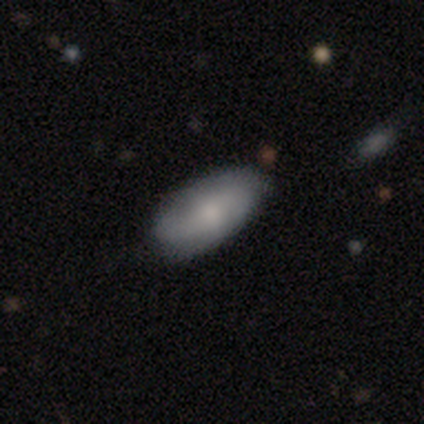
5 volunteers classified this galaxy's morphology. smooth-or-featured: smooth: 80% | star or artifact: 20% | featured or disk: 0%
  how-rounded: in between: 75% | cigar-shaped: 25% | round: 0%
  merging: none: 50% (tied) | minor disturbance: 50% (tied) | major disturbance: 0% | merger: 0%